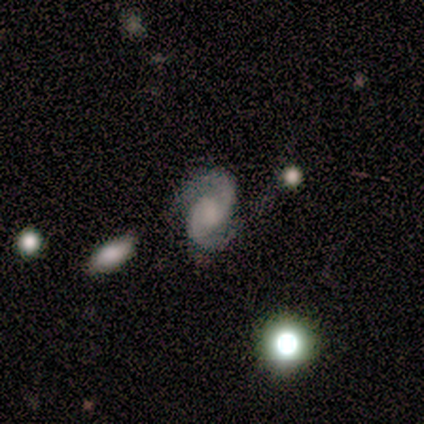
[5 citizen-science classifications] This is clearly a featured or disk galaxy (100%). It is clearly not viewed edge-on (100%). Bar: marginally weak (40%, tied with no). Spiral arm pattern: clearly yes (100%). Spiral arm count: clearly 2 (100%). Spiral winding: clearly medium (80%). Central bulge: likely moderate (60%). Merging: likely none (60%).